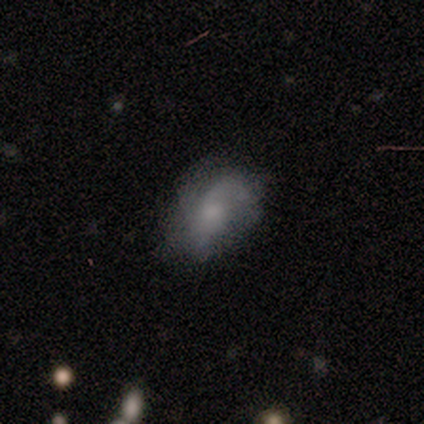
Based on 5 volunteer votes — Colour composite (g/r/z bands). It shows a featured or disk galaxy (100%) with no bar (80%), loose (60%) spiral arms (100%) and a small central bulge (60%). Merging: minor disturbance (60%).